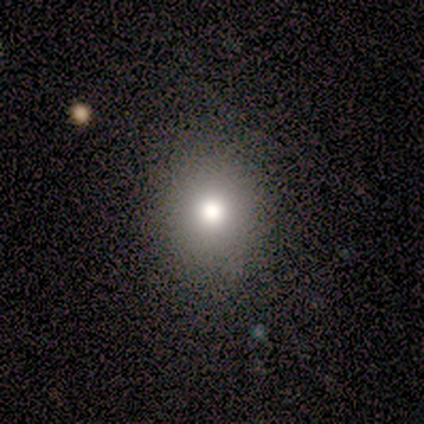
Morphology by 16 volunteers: Smooth or featured? 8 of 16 (50%) said smooth. How rounded? 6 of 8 (75%) said round. Merging? 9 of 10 (90%) said none.